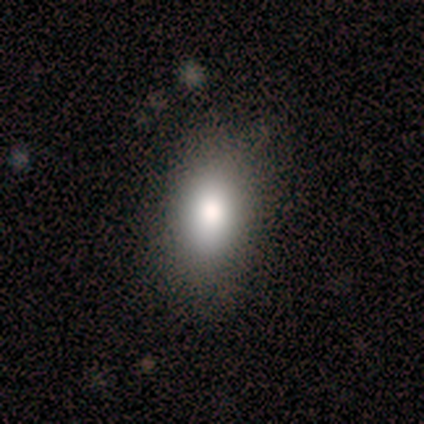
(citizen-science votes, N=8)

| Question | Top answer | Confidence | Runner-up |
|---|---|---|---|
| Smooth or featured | smooth | 100% | — |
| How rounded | in between | 88% | round (12%) |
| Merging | none | 88% | major disturbance (12%) |